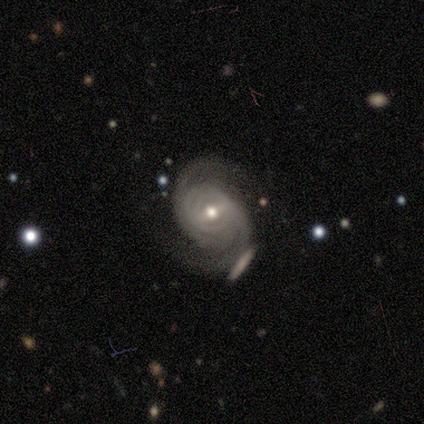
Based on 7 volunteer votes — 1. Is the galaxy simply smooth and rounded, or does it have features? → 100% featured or disk, 0% smooth, 0% star or artifact.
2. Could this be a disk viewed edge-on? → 100% no, 0% yes.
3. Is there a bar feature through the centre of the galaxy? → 57% no, 29% weak, 14% strong.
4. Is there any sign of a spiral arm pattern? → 100% yes, 0% no.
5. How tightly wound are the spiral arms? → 57% medium, 43% tight, 0% loose.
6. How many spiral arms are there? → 100% 2, 0% 1, 0% 3, 0% 4, 0% more than 4, 0% can't tell.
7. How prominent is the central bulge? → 57% small, 43% moderate, 0% dominant, 0% large, 0% none.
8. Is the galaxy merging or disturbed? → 57% none, 43% minor disturbance, 0% major disturbance, 0% merger.